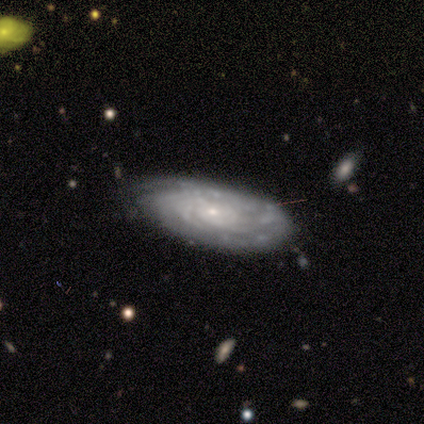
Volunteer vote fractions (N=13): This is clearly a featured or disk galaxy (100%). It is clearly not viewed edge-on (100%). Bar: likely no (77%). Spiral arm pattern: clearly yes (100%). Spiral arm count: possibly can't tell (54%). Spiral winding: clearly tight (92%). Central bulge: clearly small (92%). Merging: possibly minor disturbance (54%).